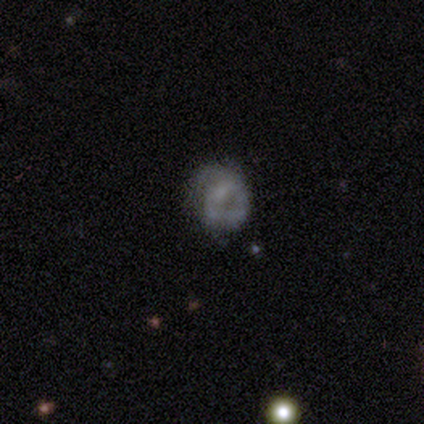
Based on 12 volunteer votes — Smooth or featured? featured or disk (42%)
Edge-on disk? no (100%)
Bar? strong (40%, tied with no)
Spiral arms? yes (60%)
Spiral winding? tight (67%)
Spiral arm count? 1 (33%, tied with 3 and more than 4)
Bulge size? moderate (40%, tied with small)
Merging? minor disturbance (56%)